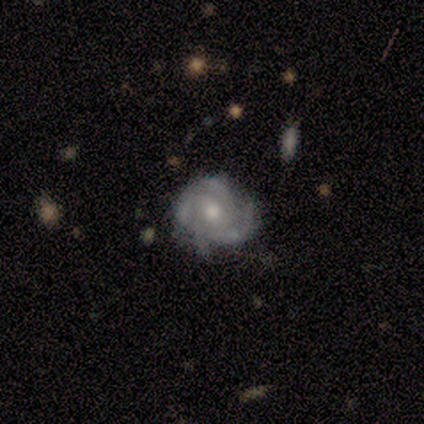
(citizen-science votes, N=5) smooth_or_featured: featured or disk (p=1.00)
disk_edge_on: no (p=1.00)
bar: no (p=0.80) [alt: strong p=0.20]
has_spiral_arms: yes (p=1.00)
spiral_winding: medium (p=0.60) [alt: tight p=0.40]
spiral_arm_count: 4 (p=0.80) [alt: can't tell p=0.20]
bulge_size: moderate (p=0.60) [alt: small p=0.40]
merging: none (p=0.80) [alt: minor disturbance p=0.20]